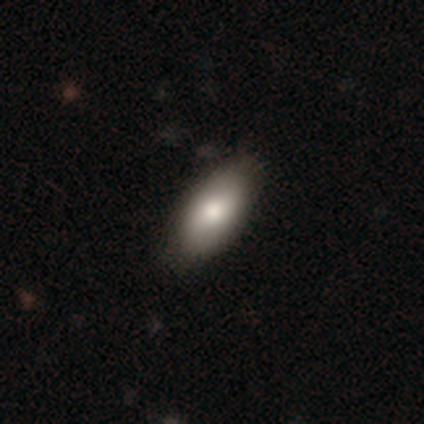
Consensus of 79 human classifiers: A smooth galaxy with no disk features (85%) that is in between round and cigar-shaped (88%).

Vote fractions:
- Smooth or featured? smooth: 85% / featured or disk: 8% / star or artifact: 8%
- How rounded? in between: 88% / cigar-shaped: 7% / round: 4%
- Merging? none: 42% / minor disturbance: 7% / major disturbance: 1% / merger: 0%